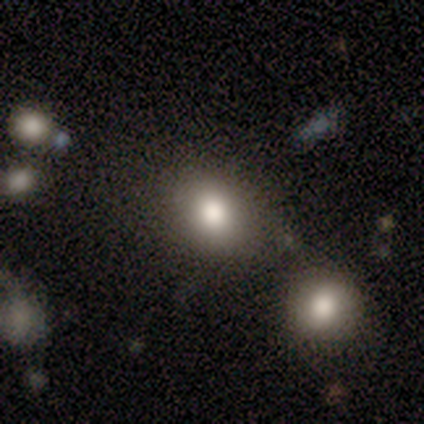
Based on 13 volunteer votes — Smooth or featured? smooth (85%)
How rounded? in between (64%)
Merging? none (69%)